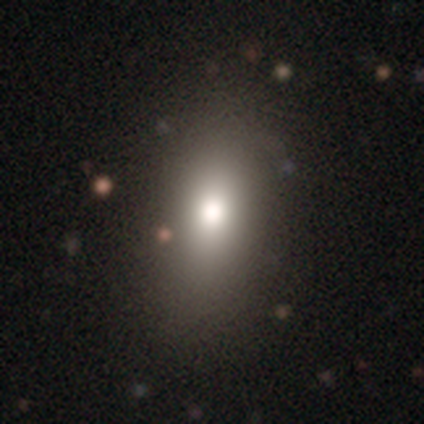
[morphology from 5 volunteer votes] smooth-or-featured: smooth: 60% | featured or disk: 20% | star or artifact: 20%
  how-rounded: in between: 100% | round: 0% | cigar-shaped: 0%
  merging: none: 50% (tied) | minor disturbance: 50% (tied) | major disturbance: 0% | merger: 0%